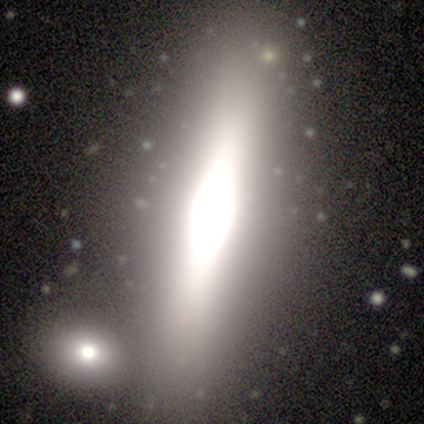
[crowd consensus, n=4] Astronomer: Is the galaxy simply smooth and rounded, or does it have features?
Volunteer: featured or disk — 50%, tied with star or artifact at 50%.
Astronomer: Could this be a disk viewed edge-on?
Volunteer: yes — 100%.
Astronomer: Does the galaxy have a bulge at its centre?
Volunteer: boxy — 50%, tied with rounded at 50%.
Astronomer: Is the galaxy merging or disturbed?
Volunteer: minor disturbance — 50%, tied with merger at 50%.